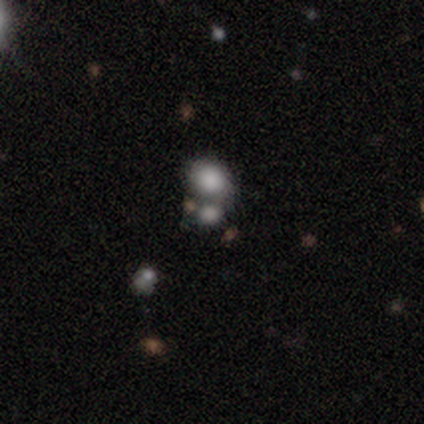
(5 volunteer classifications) Volunteers were most divided on "smooth or featured": smooth: 60%, star or artifact: 40%, featured or disk: 0%. More confident: merging — merger (100%); how rounded — in between (67%).